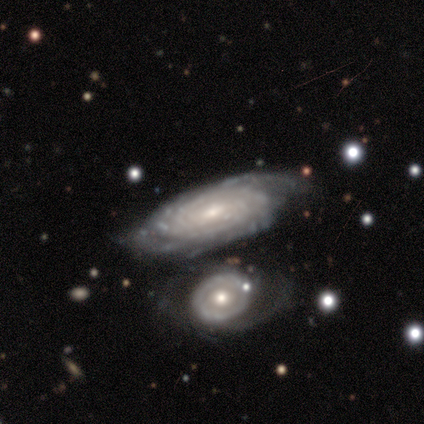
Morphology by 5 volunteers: Smooth or featured? featured or disk (100%)
Edge-on disk? no (100%)
Bar? weak (40%, tied with no)
Spiral arms? yes (100%)
Spiral winding? tight (80%)
Spiral arm count? more than 4 (60%)
Bulge size? moderate (60%)
Merging? none (60%)